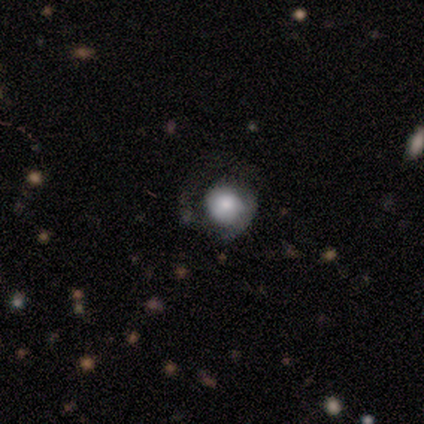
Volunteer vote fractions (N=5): This is likely a featured or disk galaxy (60%). It is clearly not viewed edge-on (100%). Bar: likely no (67%). Spiral arm pattern: likely yes (67%). Spiral arm count: clearly 1 (100%). Spiral winding: clearly tight (100%). Central bulge: likely moderate (67%). Merging: marginally none (40%, tied with minor disturbance).